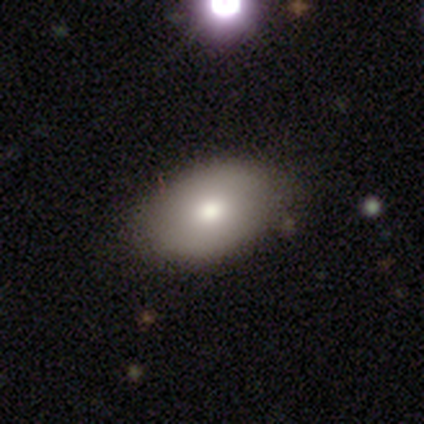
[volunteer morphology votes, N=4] A smooth galaxy with no disk features (50%) that is in between round and cigar-shaped (100%).

Vote fractions:
- Smooth or featured? smooth: 50% / featured or disk: 25% / star or artifact: 25%
- How rounded? in between: 100% / round: 0% / cigar-shaped: 0%
- Merging? none: 100% / minor disturbance: 0% / major disturbance: 0% / merger: 0%